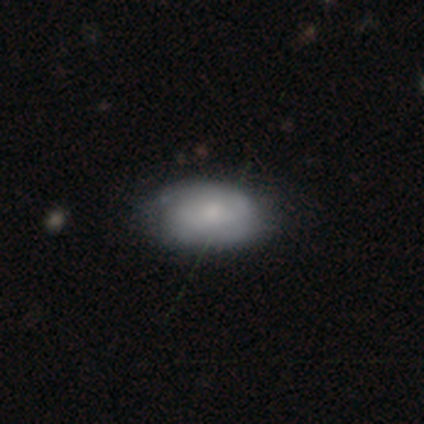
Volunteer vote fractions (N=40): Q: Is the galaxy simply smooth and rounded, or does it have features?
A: smooth — 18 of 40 (45%, tied with featured or disk).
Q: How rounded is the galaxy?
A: in between — 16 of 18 (89%).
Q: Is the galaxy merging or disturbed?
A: none — 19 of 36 (53%).